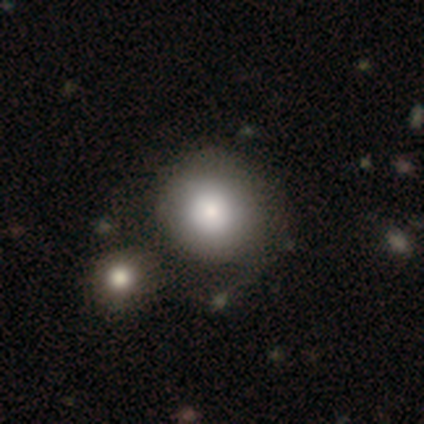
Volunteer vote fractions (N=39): Overall: smooth (87%). How rounded: round (94%). Merging: none (39%; merger 17%).